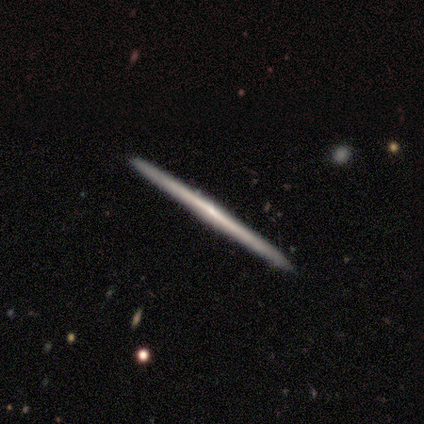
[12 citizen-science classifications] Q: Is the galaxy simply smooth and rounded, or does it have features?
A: featured or disk — 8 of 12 (67%).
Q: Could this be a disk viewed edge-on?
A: yes — 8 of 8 (100%).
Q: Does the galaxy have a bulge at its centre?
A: none — 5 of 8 (62%).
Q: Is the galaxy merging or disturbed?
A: none — 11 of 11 (100%).